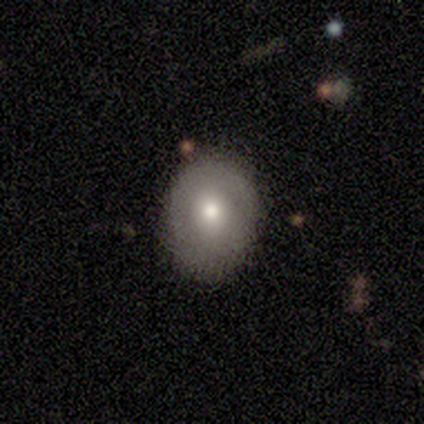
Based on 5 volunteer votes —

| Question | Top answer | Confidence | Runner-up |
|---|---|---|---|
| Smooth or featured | smooth | 80% | star or artifact (20%) |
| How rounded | round | 75% | in between (25%) |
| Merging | none | 100% | — |